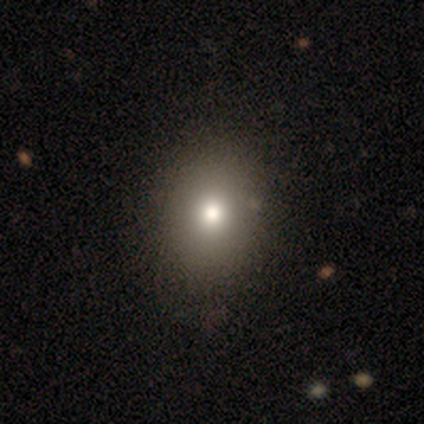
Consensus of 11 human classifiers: Smooth or featured: smooth — 55% (featured or disk — 27%)
How rounded: in between — 67% (round — 33%)
Merging: none — 89% (minor disturbance — 11%)